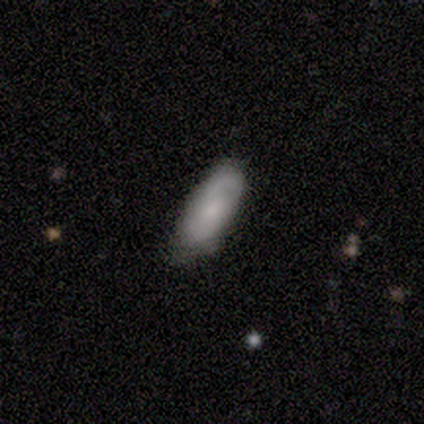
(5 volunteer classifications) smooth 80%, featured or disk 20%, star or artifact 0%. Down the decision tree: how rounded — in between (75%); merging — none (60%).